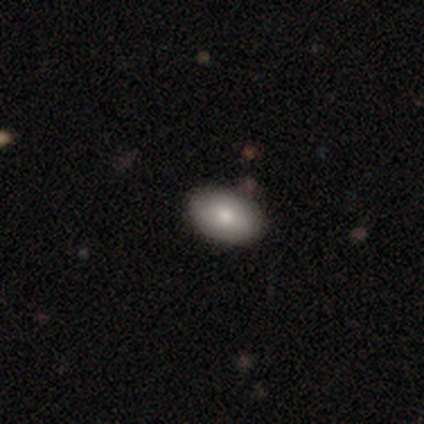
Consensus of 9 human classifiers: Overall: smooth (78%). How rounded: in between (100%). Merging: none (100%).